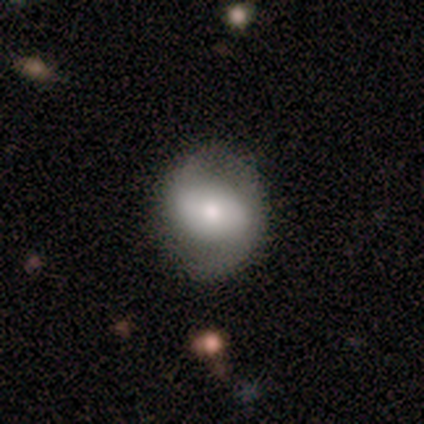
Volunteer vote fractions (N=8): This appears to be a featured or disk galaxy (75%) with no bar (50%), no spiral arms (67%) and a moderate central bulge (83%). Merging: none (88%).